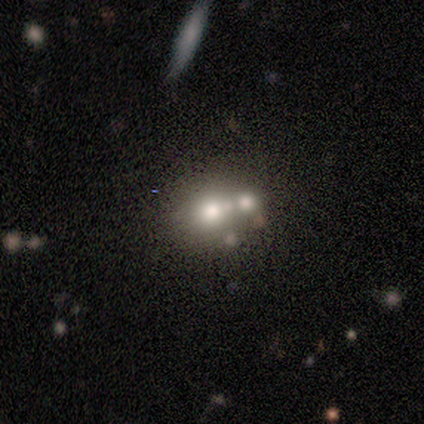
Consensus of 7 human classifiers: smooth_or_featured: featured or disk (p=0.57) [alt: star or artifact p=0.29]
disk_edge_on: no (p=1.00)
bar: no (p=1.00)
has_spiral_arms: no (p=1.00)
bulge_size: large (p=0.25) [tied with: moderate p=0.25, small p=0.25, none p=0.25]
merging: none (p=0.40) [tied with: merger p=0.40]